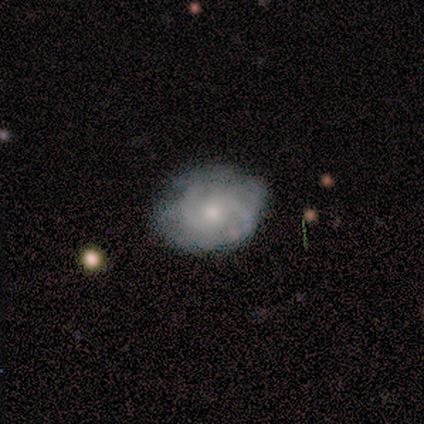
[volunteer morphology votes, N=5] A featured or disk galaxy (60%) with a weak bar (67%), 2 (100%) tight (33%, tied with medium and loose) spiral arms (100%) and a small central bulge (67%). Merging: none (80%).